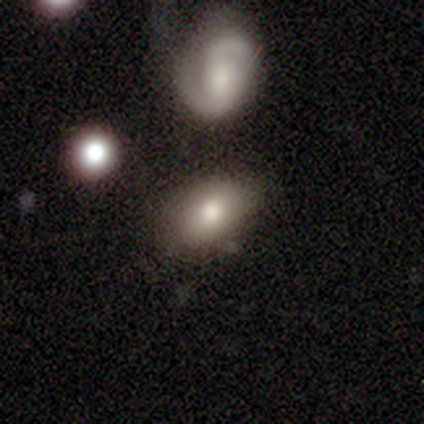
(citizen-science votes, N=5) Smooth or featured?
  - star or artifact: 60% *
  - smooth: 40%
  - featured or disk: 0%